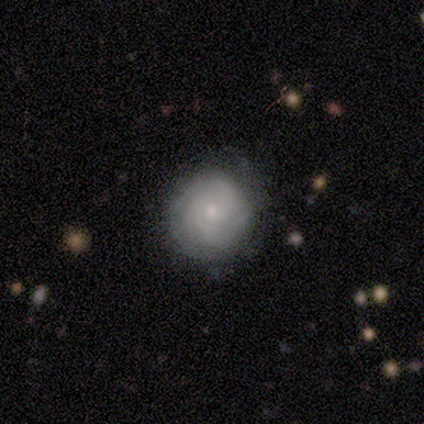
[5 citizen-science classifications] This is clearly a smooth galaxy (80%). How rounded: clearly round (100%). Merging: clearly none (80%).